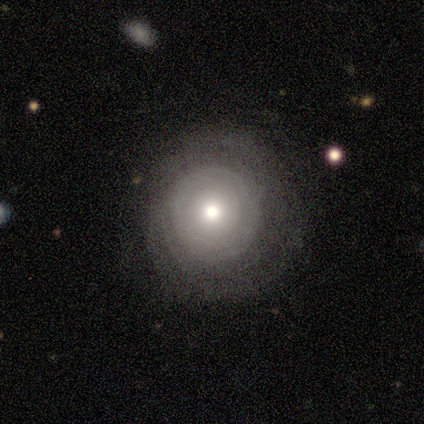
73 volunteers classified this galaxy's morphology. smooth-or-featured: featured or disk: 52% | smooth: 34% | star or artifact: 14%
  disk-edge-on: no: 95% | yes: 5%
    bar: no: 92% | weak: 8% | strong: 0%
    has-spiral-arms: yes: 67% | no: 33%
      spiral-winding: tight: 83% | medium: 17% | loose: 0%
      spiral-arm-count: can't tell: 79% | 4: 8% | 1: 4% | 3: 4% | more than 4: 4% | 2: 0%
    bulge-size: moderate: 78% | small: 14% | large: 6% | none: 3% | dominant: 0%
  merging: none: 33% | minor disturbance: 16% | major disturbance: 2% | merger: 0%